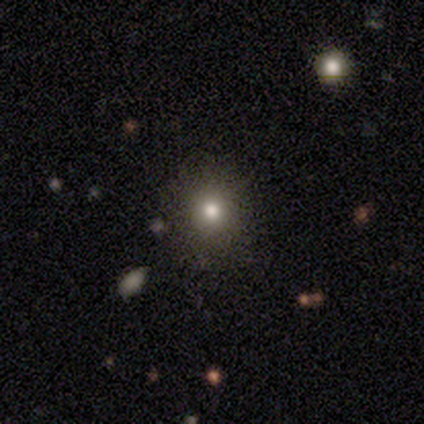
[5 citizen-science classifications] smooth 80%, featured or disk 20%, star or artifact 0%. Down the decision tree: how rounded — round (100%); merging — none (100%).